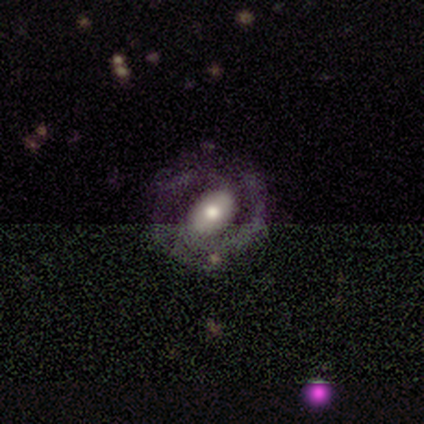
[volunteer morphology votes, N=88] This appears to be a featured or disk galaxy (73%) with no bar (46%), 2 (68%) tight (57%) spiral arms (75%) and a moderate central bulge (71%). Merging: none (62%).